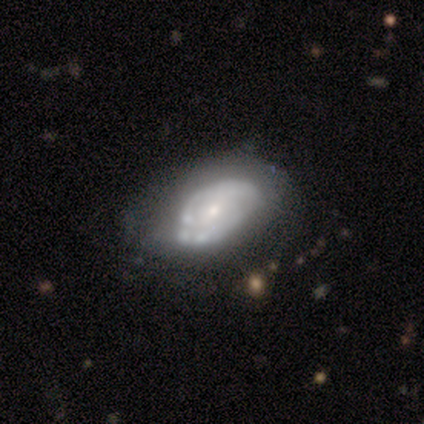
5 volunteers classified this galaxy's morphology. This is clearly a featured or disk galaxy (100%). It is clearly not viewed edge-on (100%). Bar: clearly no (100%). Spiral arm pattern: likely yes (60%). Spiral arm count: likely 2 (67%). Spiral winding: likely tight (67%). Central bulge: likely moderate (60%). Merging: clearly none (80%).